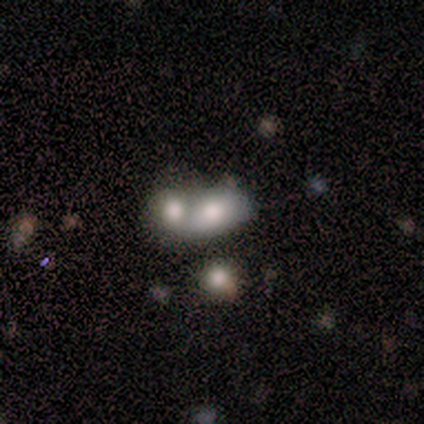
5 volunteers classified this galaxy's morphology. This is likely a smooth galaxy (60%). How rounded: likely round (67%). Merging: clearly merger (100%).